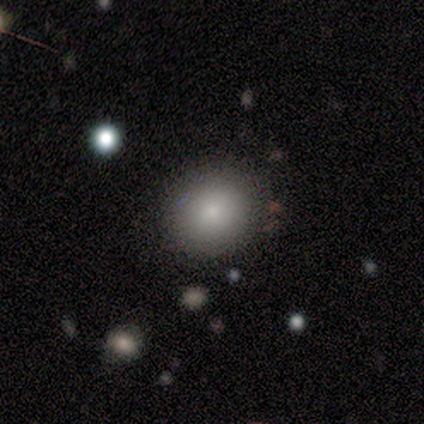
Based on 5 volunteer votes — smooth_or_featured: smooth (p=0.80) [alt: featured or disk p=0.20]
how_rounded: round (p=0.75) [alt: in between p=0.25]
merging: none (p=1.00)